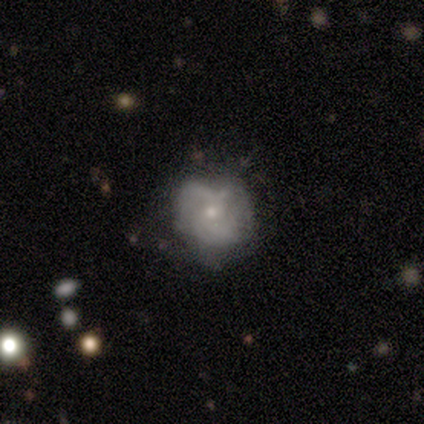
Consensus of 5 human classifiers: This appears to be a featured or disk galaxy (60%) with no bar (67%), 2 (50%, tied with can't tell) tight (50%, tied with loose) spiral arms (67%) and a small central bulge (67%). Merging: none (80%).